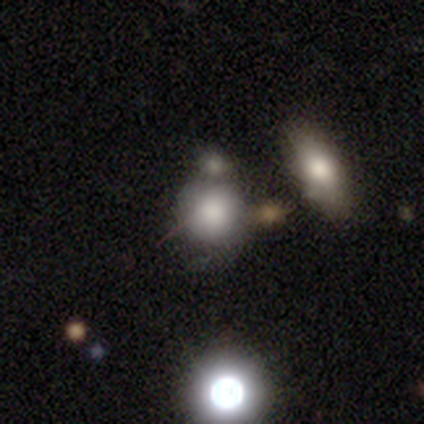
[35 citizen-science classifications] Smooth or featured: smooth — 77% (featured or disk — 11%)
How rounded: round — 81% (in between — 19%)
Merging: merger — 58%